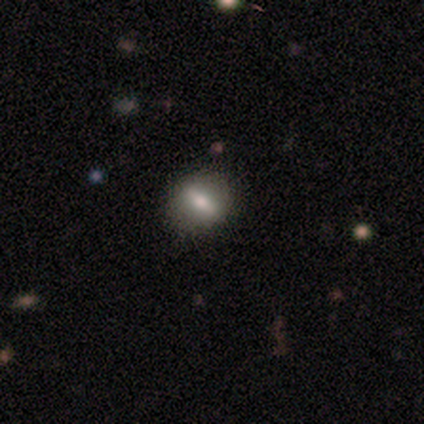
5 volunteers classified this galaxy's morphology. smooth 40% (tied), featured or disk 40% (tied), star or artifact 20%. Down the decision tree: how rounded — in between (50%, tied with cigar-shaped); merging — none (75%).